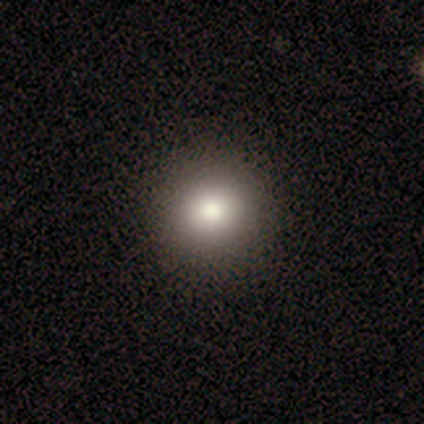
Smooth or featured? smooth (80%)
How rounded? round (100%)
Merging? none (75%)